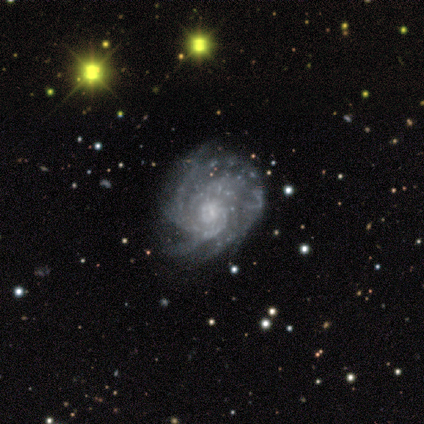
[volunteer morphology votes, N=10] Overall: featured or disk (90%). Edge-on disk: no (100%). Bar: no (78%). Spiral arms: yes (100%). Spiral arm count: 4 (33%; more than 4 22%). Spiral winding: medium (56%; tight 33%). Bulge size: small (56%; moderate 22%). Merging: none (40%, tied with minor disturbance).